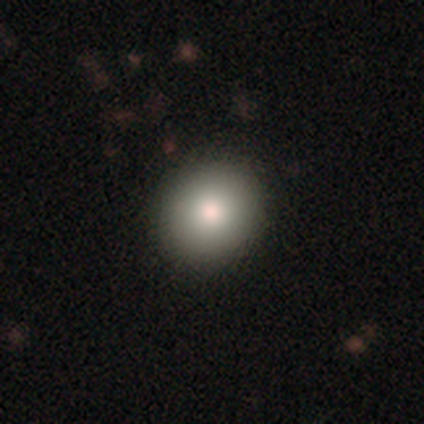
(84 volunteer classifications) Overall: smooth (81%). How rounded: round (87%). Merging: none (88%).